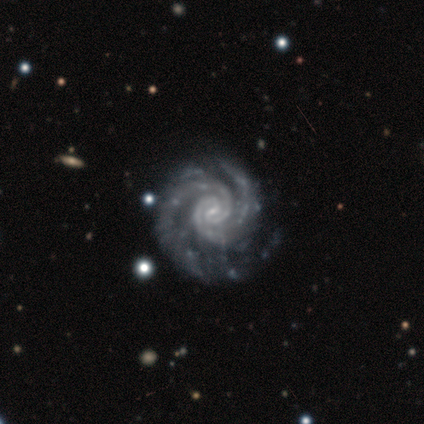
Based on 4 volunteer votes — Smooth or featured: featured or disk — 100%
Edge-on disk: no — 100%
Bar: strong — 50% (weak — 25%)
Spiral arms: yes — 100%
Spiral winding: tight — 100%
Spiral arm count: 3 — 75% (2 — 25%)
Bulge size: small — 50% (tied with none — 50%)
Merging: none — 50% (minor disturbance — 25%)